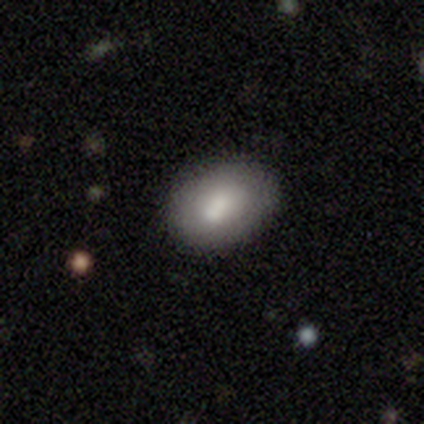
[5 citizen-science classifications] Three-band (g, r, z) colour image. It shows a smooth galaxy with no disk features (100%) that is in between round and cigar-shaped (60%). Merging: none (60%).